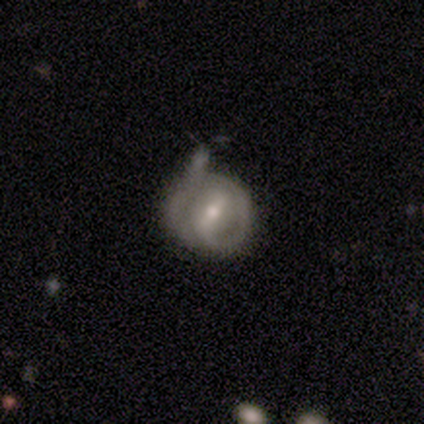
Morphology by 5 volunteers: This is clearly a featured or disk galaxy (100%). It is clearly not viewed edge-on (100%). Bar: clearly weak (80%). Spiral arm pattern: clearly yes (100%). Spiral arm count: marginally 1 (40%, tied with 2). Spiral winding: likely tight (60%). Central bulge: likely moderate (60%). Merging: marginally none (40%, tied with minor disturbance).